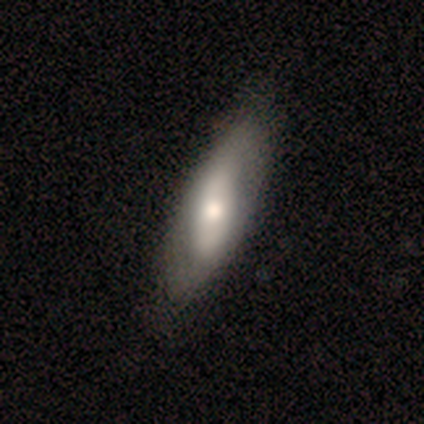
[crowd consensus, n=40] Overall: featured or disk (57%; smooth 40%). Edge-on disk: no (70%; yes 30%). Bar: strong (38%, tied with no). Spiral arms: no (56%; yes 44%). Bulge size: moderate (88%). Merging: none (74%).